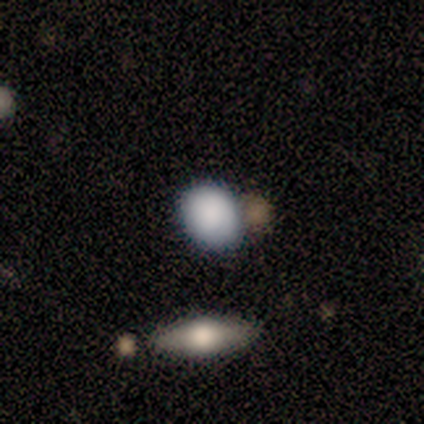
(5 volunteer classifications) Smooth or featured: smooth — 100%
How rounded: in between — 80% (round — 20%)
Merging: none — 80% (minor disturbance — 20%)